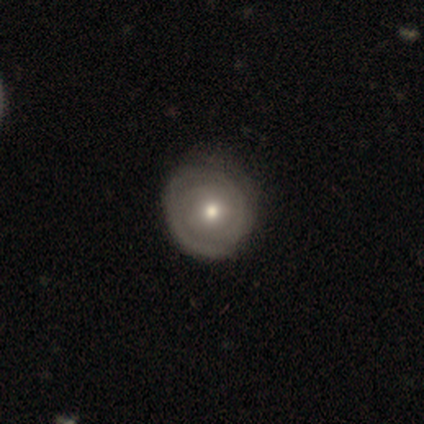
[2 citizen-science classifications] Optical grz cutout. It shows a smooth galaxy with no disk features (50%, tied with featured or disk) that is round (100%). Merging: none (50%, tied with minor disturbance).